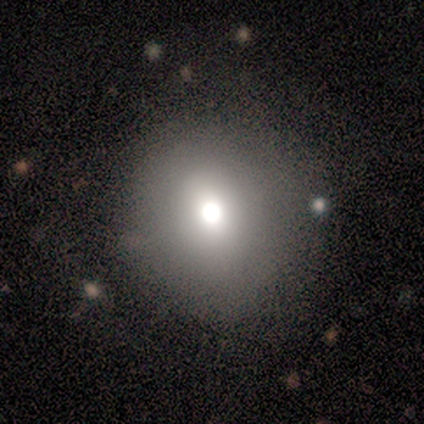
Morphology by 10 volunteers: smooth-or-featured: smooth: 70% | star or artifact: 20% | featured or disk: 10%
  how-rounded: round: 71% | in between: 29% | cigar-shaped: 0%
  merging: none: 88% | minor disturbance: 12% | major disturbance: 0% | merger: 0%